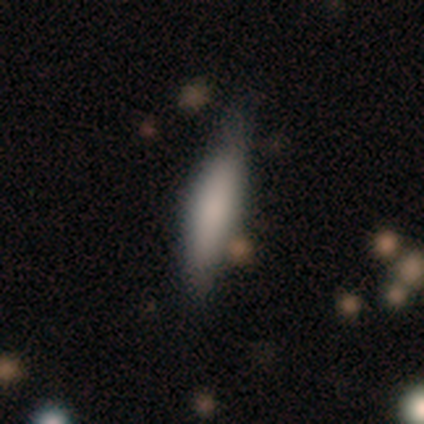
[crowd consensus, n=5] Volunteers were most divided on "how rounded": cigar-shaped: 67%, in between: 33%, round: 0%. More confident: merging — none (75%); smooth or featured — smooth (60%).